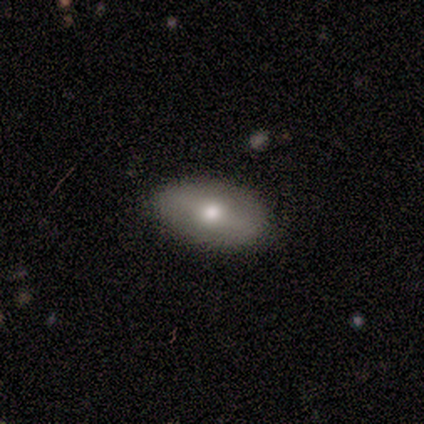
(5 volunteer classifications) Smooth or featured: smooth — 80% (featured or disk — 20%)
How rounded: in between — 100%
Merging: none — 100%